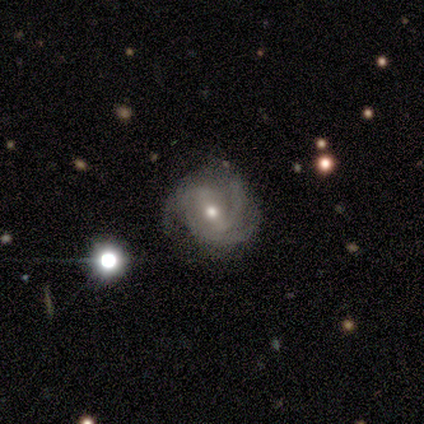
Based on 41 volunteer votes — smooth_or_featured: featured or disk (p=0.90) [alt: star or artifact p=0.07]
disk_edge_on: no (p=1.00)
bar: weak (p=0.51) [alt: no p=0.27]
has_spiral_arms: yes (p=0.97) [alt: no p=0.03]
spiral_winding: tight (p=0.58) [alt: medium p=0.36]
spiral_arm_count: 3 (p=0.67) [alt: can't tell p=0.17]
bulge_size: moderate (p=0.59) [alt: small p=0.41]
merging: none (p=0.87) [alt: minor disturbance p=0.13]